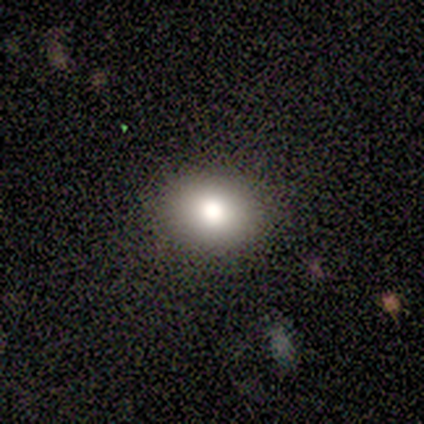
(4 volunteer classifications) Smooth or featured? smooth (75%)
How rounded? in between (67%)
Merging? none (100%)